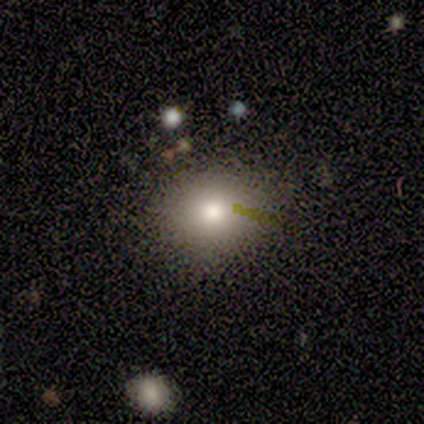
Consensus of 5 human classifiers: A smooth galaxy with no disk features (60%) that is round (67%).

Vote fractions:
- Smooth or featured? smooth: 60% / featured or disk: 20% / star or artifact: 20%
- How rounded? round: 67% / in between: 33% / cigar-shaped: 0%
- Merging? none: 100% / minor disturbance: 0% / major disturbance: 0% / merger: 0%